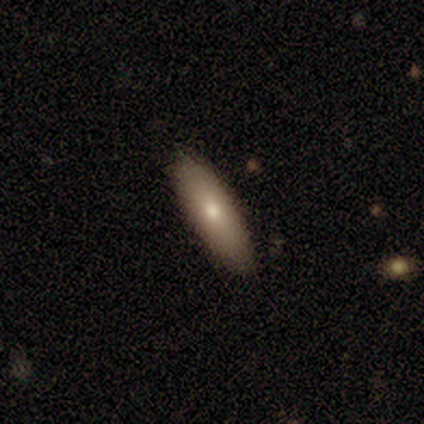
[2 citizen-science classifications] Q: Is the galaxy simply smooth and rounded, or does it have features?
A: smooth — 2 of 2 (100%).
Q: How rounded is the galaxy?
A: cigar-shaped — 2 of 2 (100%).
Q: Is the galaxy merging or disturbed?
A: none — 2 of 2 (100%).